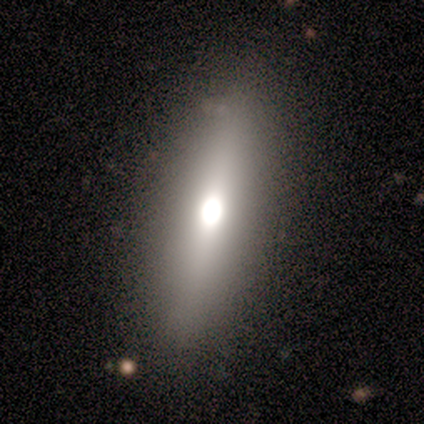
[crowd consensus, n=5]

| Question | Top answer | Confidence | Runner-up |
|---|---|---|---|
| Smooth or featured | star or artifact | 60% | smooth (20%) |